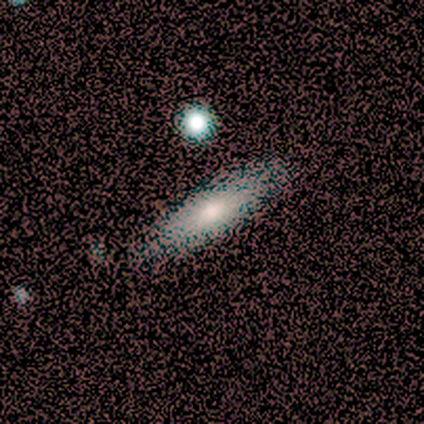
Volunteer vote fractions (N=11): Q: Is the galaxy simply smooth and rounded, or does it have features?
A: smooth — 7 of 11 (64%).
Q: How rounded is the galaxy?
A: in between — 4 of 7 (57%).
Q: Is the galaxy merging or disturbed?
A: none — 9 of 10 (90%).